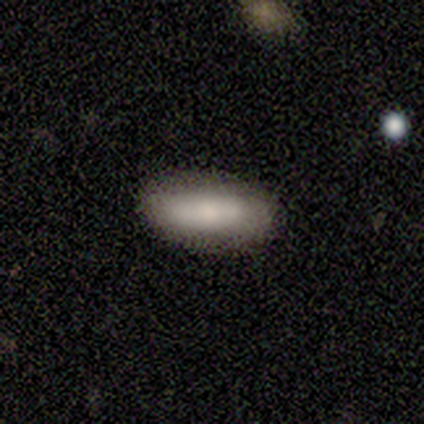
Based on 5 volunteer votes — smooth_or_featured: smooth (p=0.60) [alt: featured or disk p=0.40]
how_rounded: cigar-shaped (p=0.67) [alt: in between p=0.33]
merging: none (p=1.00)